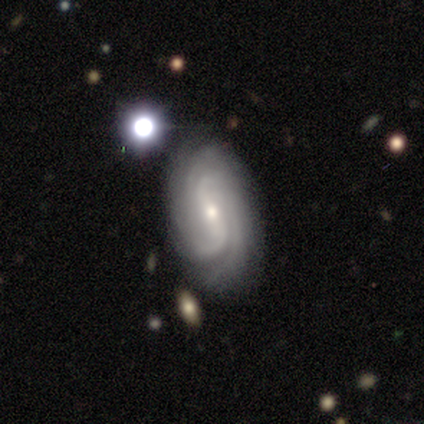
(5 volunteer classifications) A featured or disk galaxy (100%) with a weak bar (60%), 2 (40%, tied with can't tell) medium (60%) spiral arms (100%) and a moderate central bulge (60%).

Vote fractions:
- Smooth or featured? featured or disk: 100% / smooth: 0% / star or artifact: 0%
- Edge-on disk? no: 100% / yes: 0%
- Bar? weak: 60% / strong: 20% / no: 20%
- Spiral arms? yes: 100% / no: 0%
- Spiral winding? medium: 60% / tight: 20% / loose: 20%
- Spiral arm count? 2: 40% (tied) / can't tell: 40% (tied) / 4: 20% / 1: 0% / 3: 0% / more than 4: 0%
- Bulge size? moderate: 60% / small: 40% / dominant: 0% / large: 0% / none: 0%
- Merging? none: 80% / minor disturbance: 20% / major disturbance: 0% / merger: 0%